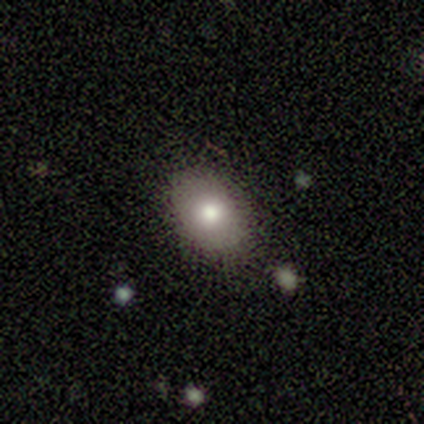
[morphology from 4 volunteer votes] Overall: smooth (100%). How rounded: in between (75%). Merging: none (100%).